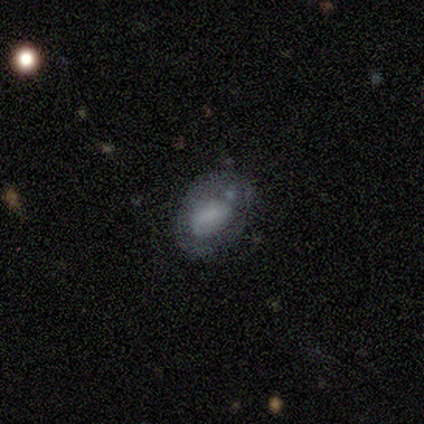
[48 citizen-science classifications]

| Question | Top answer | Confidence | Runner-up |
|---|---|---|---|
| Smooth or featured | smooth | 52% | featured or disk (40%) |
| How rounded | in between | 80% | round (16%) |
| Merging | none | 41% | tied: minor disturbance (41%) |